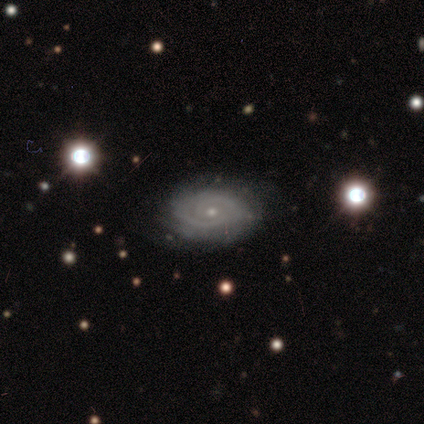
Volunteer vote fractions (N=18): smooth-or-featured: featured or disk: 78% | smooth: 11% | star or artifact: 11%
  disk-edge-on: no: 100% | yes: 0%
    bar: no: 86% | weak: 14% | strong: 0%
    has-spiral-arms: yes: 100% | no: 0%
      spiral-winding: tight: 79% | medium: 14% | loose: 7%
      spiral-arm-count: 2: 64% | can't tell: 29% | 3: 7% | 1: 0% | 4: 0% | more than 4: 0%
    bulge-size: small: 93% | large: 7% | dominant: 0% | moderate: 0% | none: 0%
  merging: none: 100% | minor disturbance: 0% | major disturbance: 0% | merger: 0%